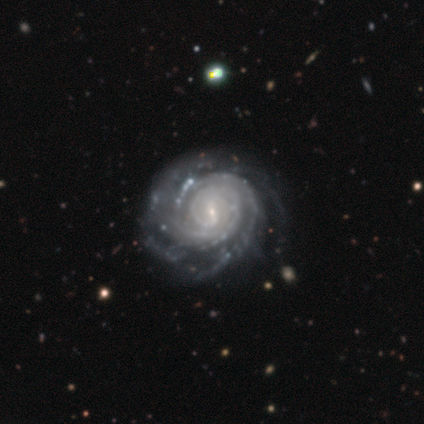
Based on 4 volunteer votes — Volunteers were most divided on "bar": no: 67%, weak: 33%, strong: 0%. More confident: edge-on disk — no (100%); spiral arms — yes (100%); bulge size — small (100%); smooth or featured — featured or disk (75%); merging — none (75%); spiral winding — tight (67%); spiral arm count — can't tell (67%).